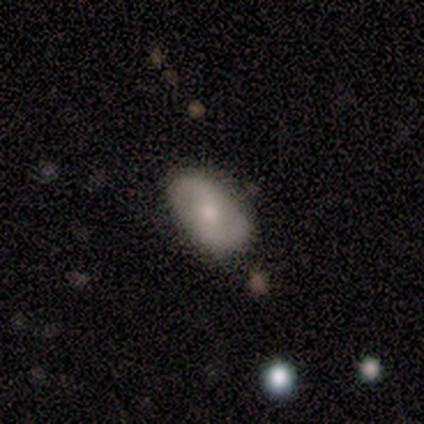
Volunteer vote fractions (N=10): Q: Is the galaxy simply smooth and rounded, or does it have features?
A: smooth — 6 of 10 (60%).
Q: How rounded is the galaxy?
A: in between — 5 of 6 (83%).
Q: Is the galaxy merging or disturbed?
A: none — 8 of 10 (80%).